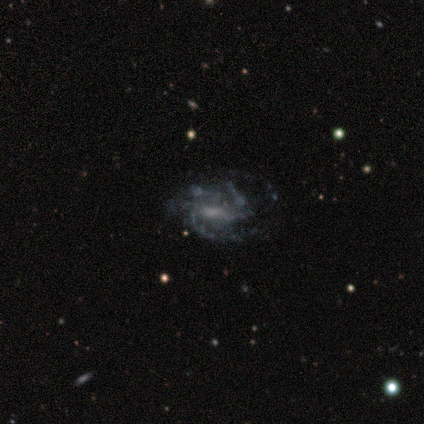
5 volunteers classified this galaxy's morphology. Smooth or featured?
  - featured or disk: 100% *
  - smooth: 0%
  - star or artifact: 0%
Edge-on disk?
  - no: 100% *
  - yes: 0%
Bar?
  - weak: 40% * (tied)
  - no: 40% * (tied)
  - strong: 20%
Spiral arms?
  - yes: 100% *
  - no: 0%
Spiral winding?
  - tight: 60% *
  - medium: 40%
  - loose: 0%
Spiral arm count?
  - 3: 40% *
  - 2: 20%
  - 4: 20%
  - can't tell: 20%
  - 1: 0%
  - more than 4: 0%
Bulge size?
  - moderate: 60% *
  - small: 20%
  - none: 20%
  - dominant: 0%
  - large: 0%
Merging?
  - none: 100% *
  - minor disturbance: 0%
  - major disturbance: 0%
  - merger: 0%